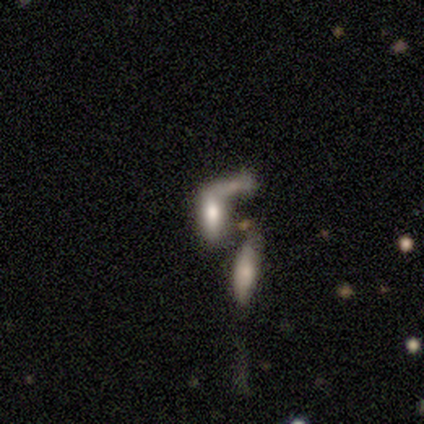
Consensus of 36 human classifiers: Smooth or featured? 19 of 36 (53%) said smooth. How rounded? 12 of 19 (63%) said cigar-shaped. Merging? 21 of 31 (68%) said merger.